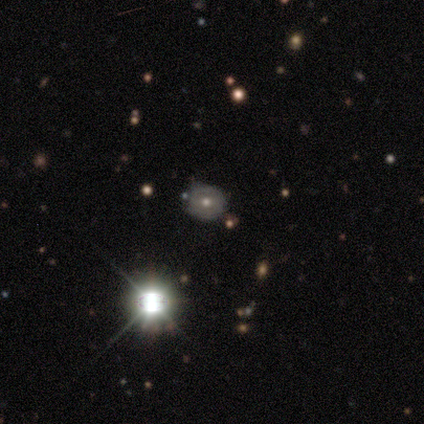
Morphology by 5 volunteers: Smooth or featured? 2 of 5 (40%, tied with star or artifact) said smooth. How rounded? 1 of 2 (50%, tied with in between) said round. Merging? 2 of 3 (67%) said none.